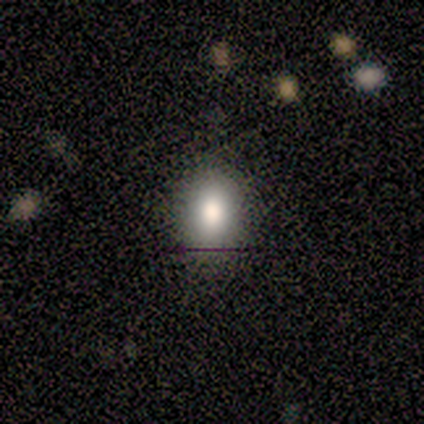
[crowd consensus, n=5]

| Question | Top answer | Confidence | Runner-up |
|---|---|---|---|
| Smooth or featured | smooth | 80% | star or artifact (20%) |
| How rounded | in between | 75% | round (25%) |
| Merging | none | 50% | tied: minor disturbance (50%) |